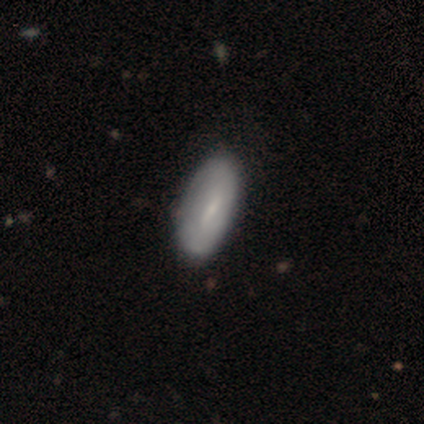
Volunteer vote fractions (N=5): Volunteers were most divided on "smooth or featured": smooth: 60%, featured or disk: 40%, star or artifact: 0%. More confident: how rounded — in between (100%); merging — none (80%).